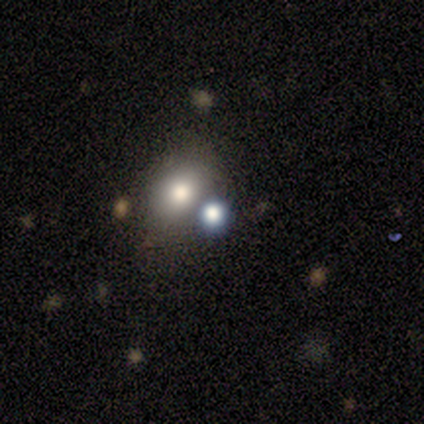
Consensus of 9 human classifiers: A smooth galaxy with no disk features (78%) that is in between round and cigar-shaped (57%).

Vote fractions:
- Smooth or featured? smooth: 78% / star or artifact: 22% / featured or disk: 0%
- How rounded? in between: 57% / round: 43% / cigar-shaped: 0%
- Merging? none: 71% / major disturbance: 14% / merger: 14% / minor disturbance: 0%